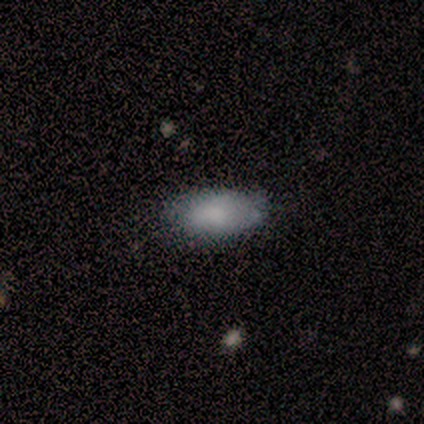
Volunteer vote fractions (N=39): Q: Smooth or featured?
A: smooth (85%); runner-up: featured or disk (8%)
Q: How rounded?
A: in between (88%); runner-up: round (6%)
Q: Merging?
A: none (83%); runner-up: minor disturbance (11%)